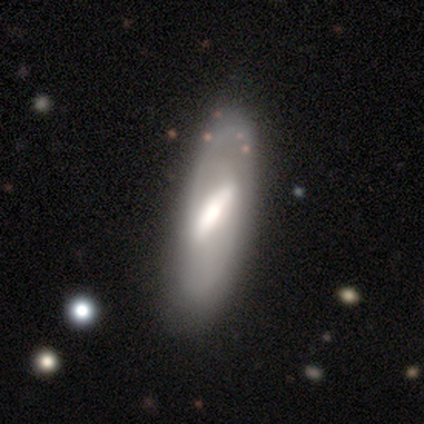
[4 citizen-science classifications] Overall: smooth (50%, tied with featured or disk). How rounded: in between (100%). Merging: none (75%).